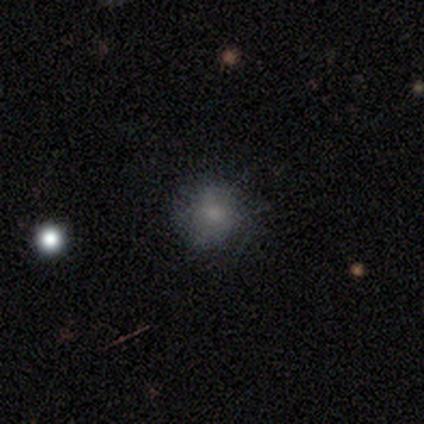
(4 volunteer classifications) Overall: smooth (50%, tied with star or artifact). How rounded: round (100%). Merging: none (50%, tied with minor disturbance).